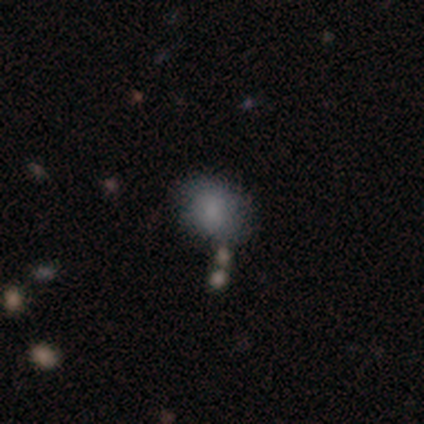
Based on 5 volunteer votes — Volunteers were most divided on "how rounded" (3-way tie): round: 33%, in between: 33%, cigar-shaped: 33%. More confident: smooth or featured — smooth (60%); merging — none (60%).